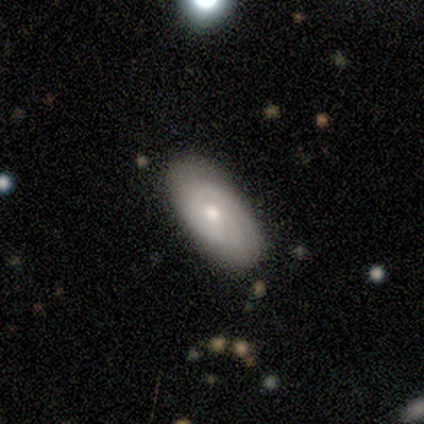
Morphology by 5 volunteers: Overall: smooth (80%). How rounded: in between (75%). Merging: none (60%; minor disturbance 40%).